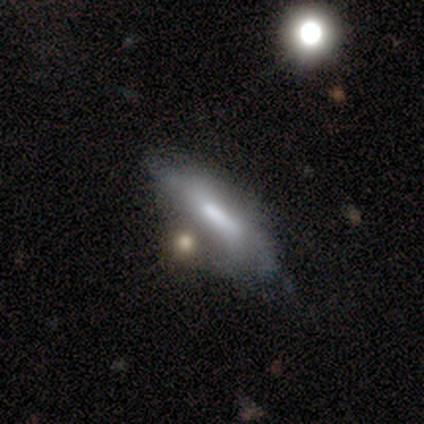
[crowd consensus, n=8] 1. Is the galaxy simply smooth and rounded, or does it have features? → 50% smooth (tied), 50% featured or disk (tied), 0% star or artifact.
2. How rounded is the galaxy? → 100% cigar-shaped, 0% round, 0% in between.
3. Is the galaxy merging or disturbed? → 50% none, 25% minor disturbance, 25% merger, 0% major disturbance.